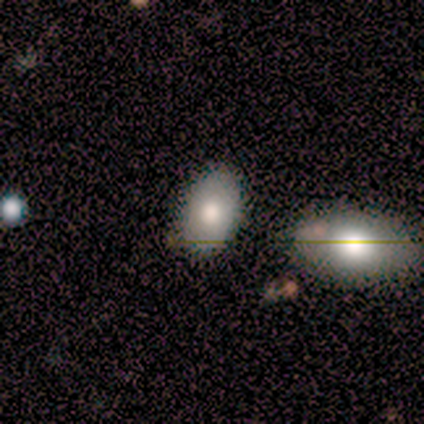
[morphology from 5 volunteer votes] A star or artifact, not a galaxy (60%).

Vote fractions:
- Smooth or featured? star or artifact: 60% / smooth: 40% / featured or disk: 0%